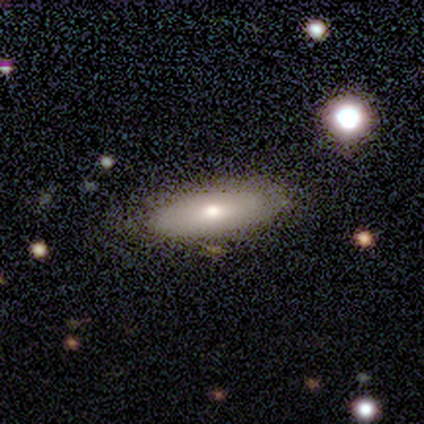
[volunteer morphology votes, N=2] Smooth or featured? smooth (50%, tied with featured or disk)
How rounded? cigar-shaped (100%)
Merging? minor disturbance (100%)